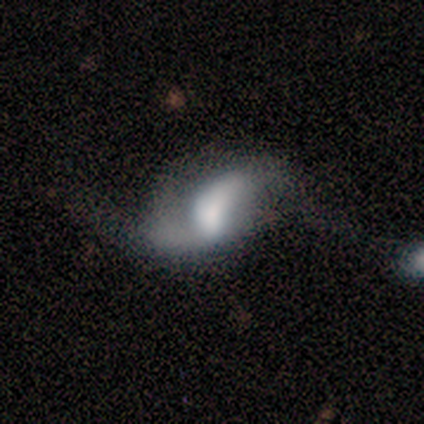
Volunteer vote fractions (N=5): featured or disk 60%, smooth 40%, star or artifact 0%. Down the decision tree: edge-on disk — no (100%); bar — no (67%); spiral arms — yes (100%); spiral arm count — 2 (100%); spiral winding — loose (100%); bulge size — large (33%, tied with small and none); merging — minor disturbance (60%).